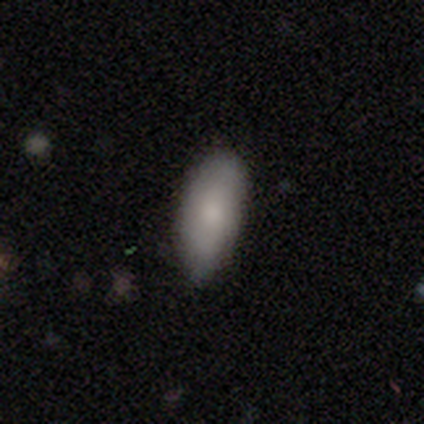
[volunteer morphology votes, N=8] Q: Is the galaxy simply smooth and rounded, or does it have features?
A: smooth — 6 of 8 (75%).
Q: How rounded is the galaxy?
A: in between — 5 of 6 (83%).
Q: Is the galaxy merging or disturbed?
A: none — 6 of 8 (75%).